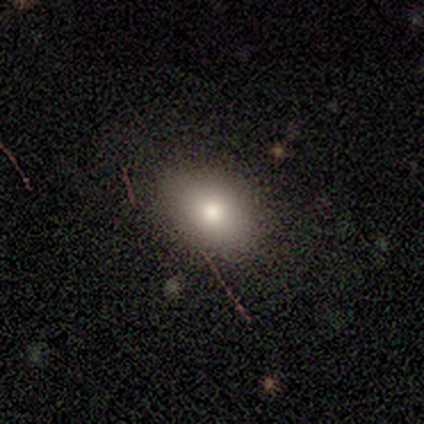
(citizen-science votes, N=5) A smooth galaxy with no disk features (100%) that is in between round and cigar-shaped (80%).

Vote fractions:
- Smooth or featured? smooth: 100% / featured or disk: 0% / star or artifact: 0%
- How rounded? in between: 80% / round: 20% / cigar-shaped: 0%
- Merging? none: 100% / minor disturbance: 0% / major disturbance: 0% / merger: 0%